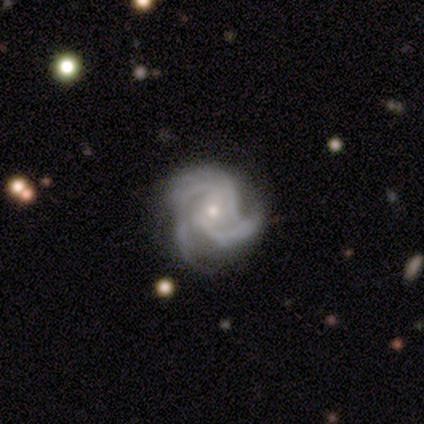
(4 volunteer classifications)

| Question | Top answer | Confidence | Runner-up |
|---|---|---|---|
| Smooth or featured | featured or disk | 75% | star or artifact (25%) |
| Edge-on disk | no | 100% | — |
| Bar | no | 67% | weak (33%) |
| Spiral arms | yes | 100% | — |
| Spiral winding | tight | 67% | loose (33%) |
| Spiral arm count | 3 | 67% | 2 (33%) |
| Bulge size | small | 67% | moderate (33%) |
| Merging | none | 67% | major disturbance (33%) |